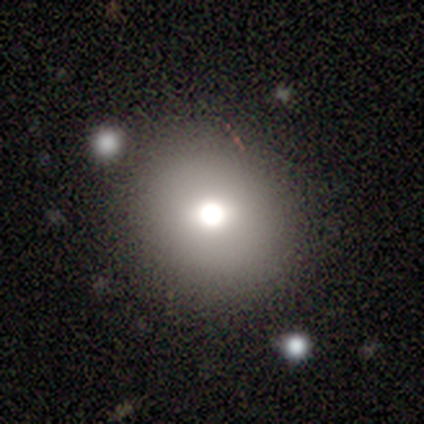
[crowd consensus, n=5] smooth 80%, star or artifact 20%, featured or disk 0%. Down the decision tree: how rounded — round (100%); merging — none (75%).